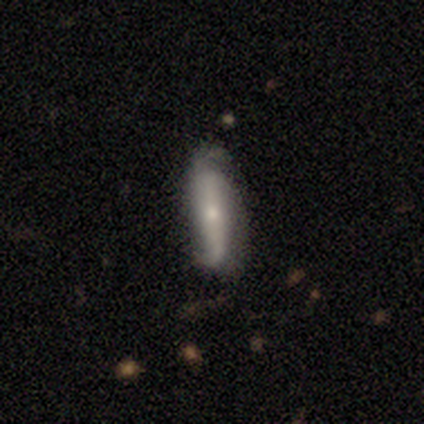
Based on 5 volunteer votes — Smooth or featured? 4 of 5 (80%) said featured or disk. Edge-on disk? 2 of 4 (50%, tied with no) said yes. Edge-on bulge? 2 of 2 (100%) said rounded. Merging? 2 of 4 (50%) said none.